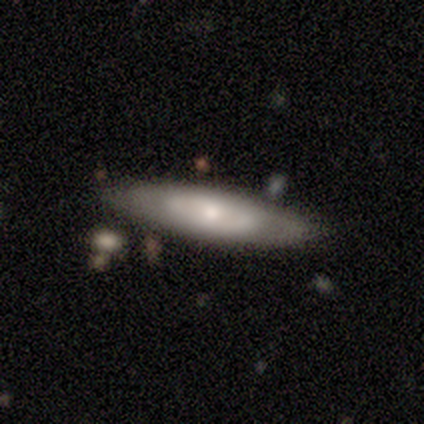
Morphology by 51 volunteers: A featured or disk galaxy (73%) with no bar (86%), tight (71%) spiral arms (50%, tied with no) and a moderate central bulge (57%). Merging: none (76%).